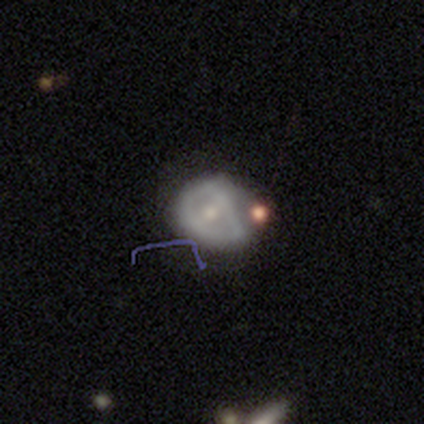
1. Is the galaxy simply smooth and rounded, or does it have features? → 60% smooth, 40% featured or disk, 0% star or artifact.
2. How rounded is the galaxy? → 100% in between, 0% round, 0% cigar-shaped.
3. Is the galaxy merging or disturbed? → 60% minor disturbance, 20% none, 20% merger, 0% major disturbance.